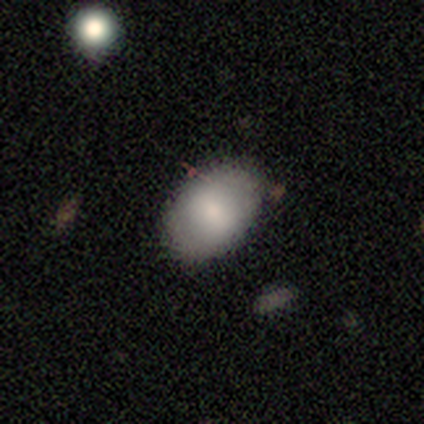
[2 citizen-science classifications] This appears to be a smooth galaxy with no disk features (100%) that is in between round and cigar-shaped (100%). Merging: none (100%).